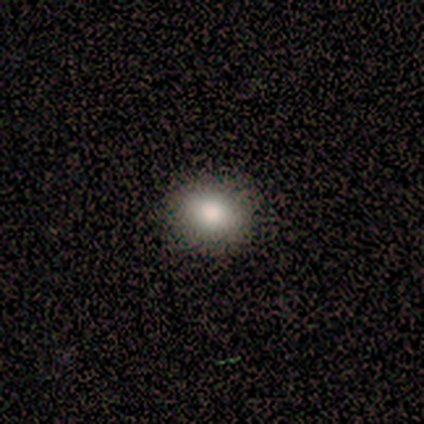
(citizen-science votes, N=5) This appears to be a smooth galaxy with no disk features (100%) that is in between round and cigar-shaped (60%). Merging: none (80%).